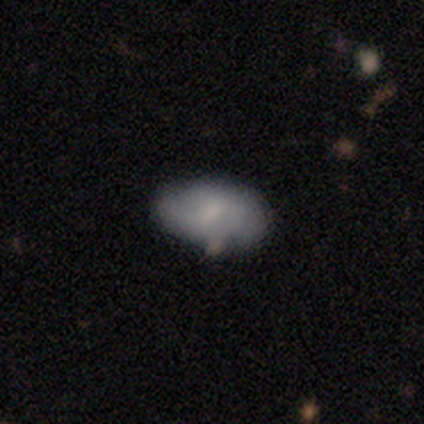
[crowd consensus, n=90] Q: Smooth or featured?
A: smooth (62%); runner-up: featured or disk (27%)
Q: How rounded?
A: in between (93%); runner-up: round (7%)
Q: Merging?
A: none (68%); runner-up: minor disturbance (26%)